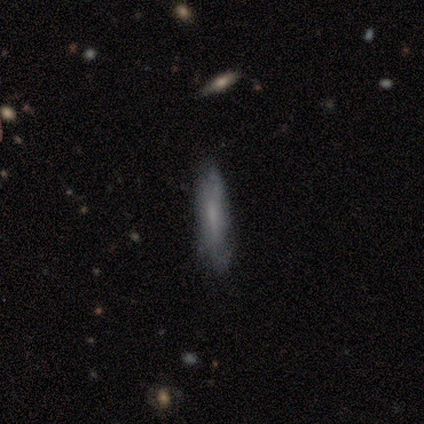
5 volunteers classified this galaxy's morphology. Smooth or featured? 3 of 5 (60%) said smooth. How rounded? 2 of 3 (67%) said cigar-shaped. Merging? 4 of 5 (80%) said none.